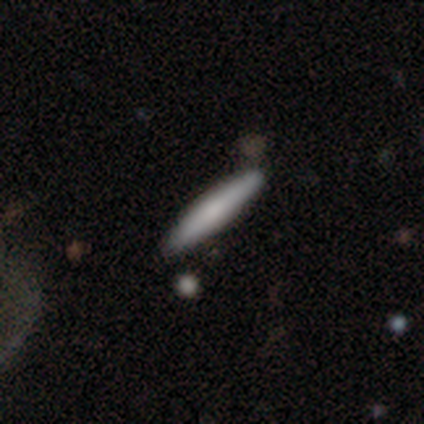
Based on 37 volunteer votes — This appears to be a smooth galaxy with no disk features (73%) that is cigar-shaped (100%). Merging: none (89%).